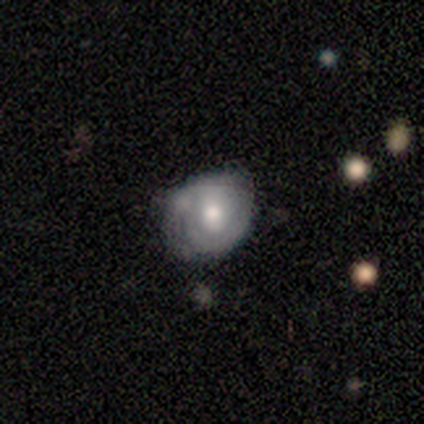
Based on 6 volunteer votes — Q: Smooth or featured?
A: smooth (67%); runner-up: featured or disk (33%)
Q: How rounded?
A: round (100%)
Q: Merging?
A: minor disturbance (50%); runner-up: none (33%)